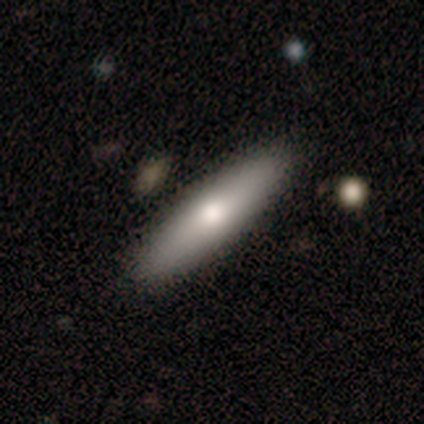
smooth_or_featured: smooth (p=0.80) [alt: featured or disk p=0.20]
how_rounded: cigar-shaped (p=1.00)
merging: none (p=1.00)